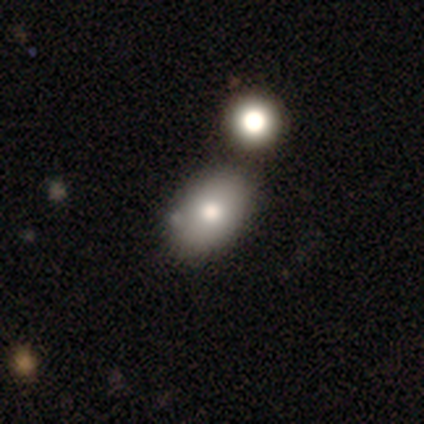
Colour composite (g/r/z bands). It shows a smooth galaxy with no disk features (100%) that is in between round and cigar-shaped (57%). Merging: none (71%).